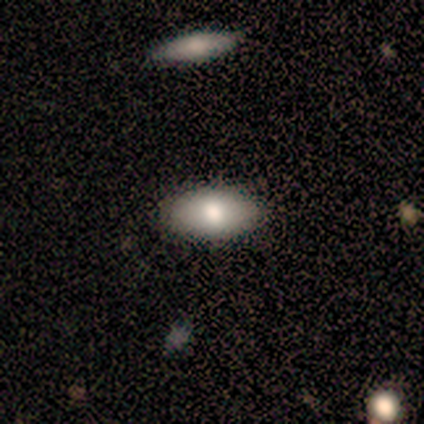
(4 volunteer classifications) Smooth or featured? smooth (50%, tied with featured or disk)
How rounded? in between (100%)
Merging? none (100%)